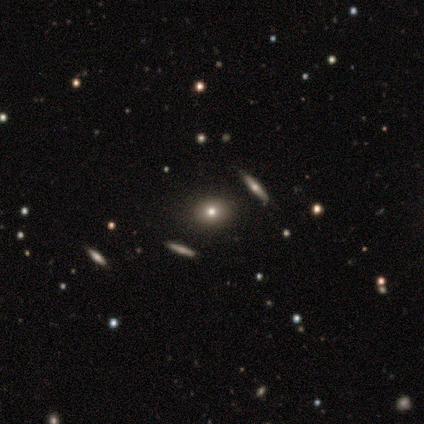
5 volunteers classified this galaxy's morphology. smooth_or_featured: smooth (p=0.80) [alt: featured or disk p=0.20]
how_rounded: round (p=1.00)
merging: none (p=1.00)